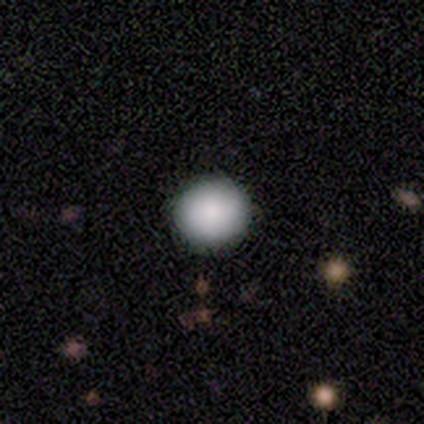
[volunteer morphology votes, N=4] smooth 100%, featured or disk 0%, star or artifact 0%. Down the decision tree: how rounded — round (100%); merging — none (100%).